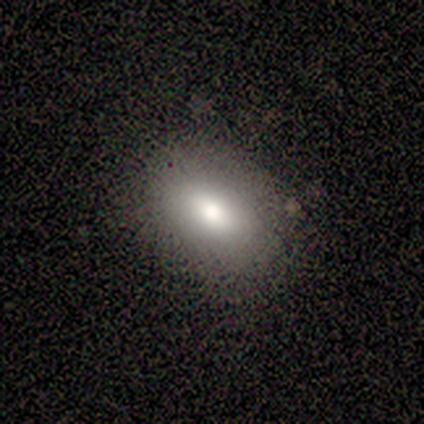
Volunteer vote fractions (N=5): Q: Smooth or featured?
A: smooth (100%)
Q: How rounded?
A: in between (100%)
Q: Merging?
A: none (80%); runner-up: minor disturbance (20%)